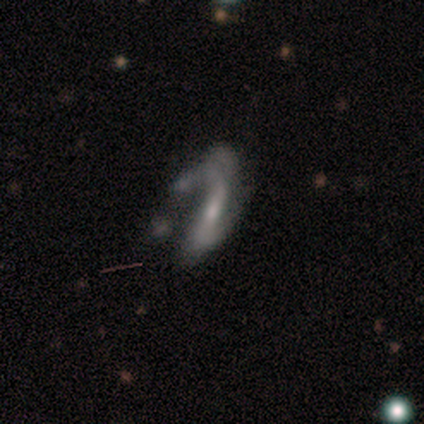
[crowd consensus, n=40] Smooth or featured?
  - featured or disk: 72% *
  - smooth: 25%
  - star or artifact: 2%
Edge-on disk?
  - no: 90% *
  - yes: 10%
Bar?
  - strong: 50% *
  - no: 27%
  - weak: 23%
Spiral arms?
  - yes: 85% *
  - no: 15%
Spiral winding?
  - loose: 73% *
  - medium: 23%
  - tight: 5%
Spiral arm count?
  - 2: 77% *
  - can't tell: 9%
  - 1: 5%
  - 3: 5%
  - 4: 5%
  - more than 4: 0%
Bulge size?
  - small: 50% *
  - moderate: 38%
  - none: 12%
  - dominant: 0%
  - large: 0%
Merging?
  - major disturbance: 51% *
  - none: 31%
  - merger: 10%
  - minor disturbance: 8%